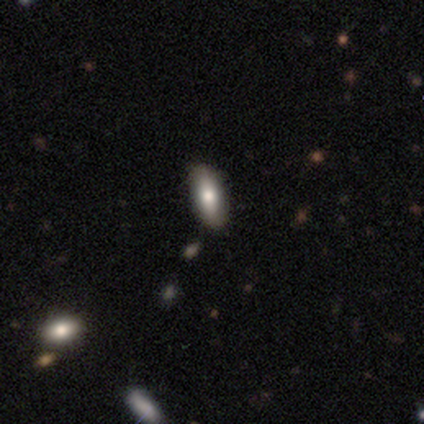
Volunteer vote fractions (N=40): Morphology: type=smooth (62%); roundness=in between (80%); merging=none (84%).